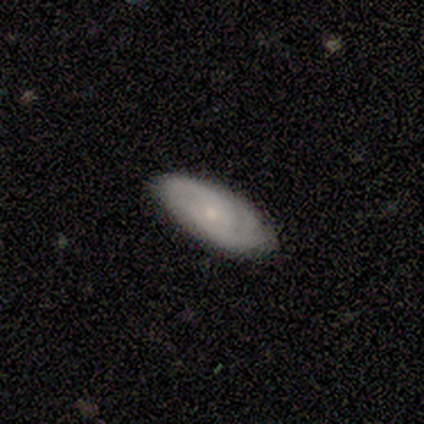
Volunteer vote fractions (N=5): Q: Smooth or featured?
A: featured or disk (80%); runner-up: smooth (20%)
Q: Edge-on disk?
A: no (100%)
Q: Bar?
A: no (100%)
Q: Spiral arms?
A: yes (100%)
Q: Spiral winding?
A: tight (75%); runner-up: medium (25%)
Q: Spiral arm count?
A: 2 (50%); tied with: can't tell (50%)
Q: Bulge size?
A: small (100%)
Q: Merging?
A: none (100%)